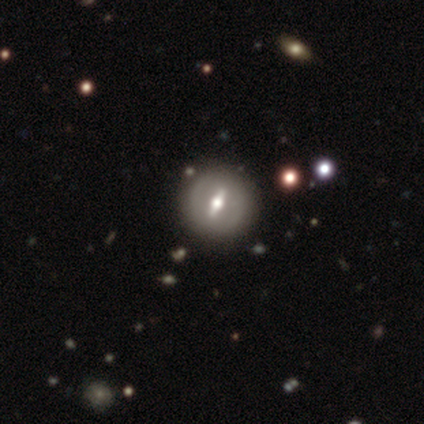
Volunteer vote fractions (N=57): smooth-or-featured: featured or disk: 79% | smooth: 18% | star or artifact: 4%
  disk-edge-on: no: 73% | yes: 27%
    bar: strong: 79% | weak: 15% | no: 6%
    has-spiral-arms: no: 76% | yes: 24%
    bulge-size: moderate: 70% | large: 15% | small: 15% | dominant: 0% | none: 0%
  merging: none: 87% | minor disturbance: 13% | major disturbance: 0% | merger: 0%